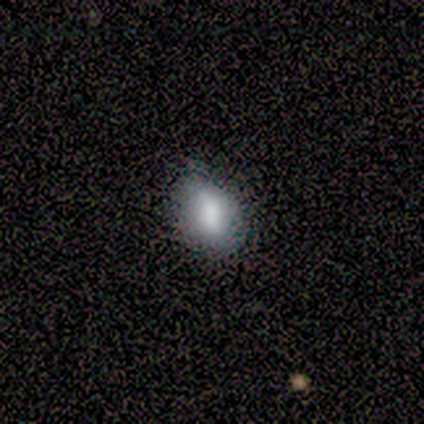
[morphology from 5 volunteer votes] smooth_or_featured: smooth (p=0.60) [alt: star or artifact p=0.40]
how_rounded: in between (p=0.67) [alt: round p=0.33]
merging: none (p=1.00)